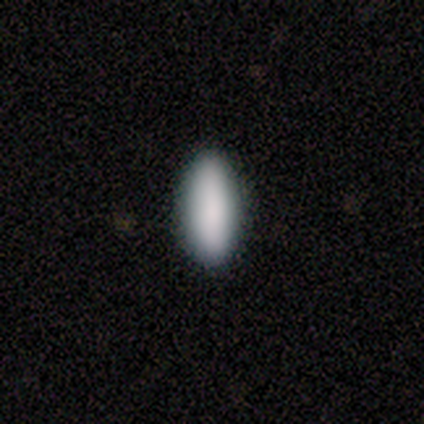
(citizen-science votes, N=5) Morphology: type=smooth (100%); roundness=cigar-shaped (60%); merging=none (100%).